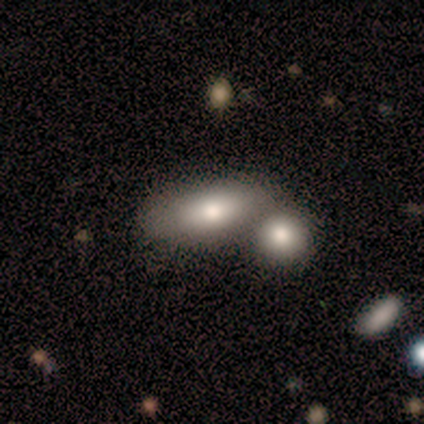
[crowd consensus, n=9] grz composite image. It shows a smooth galaxy with no disk features (100%) that is in between round and cigar-shaped (89%). Merging: none (56%).